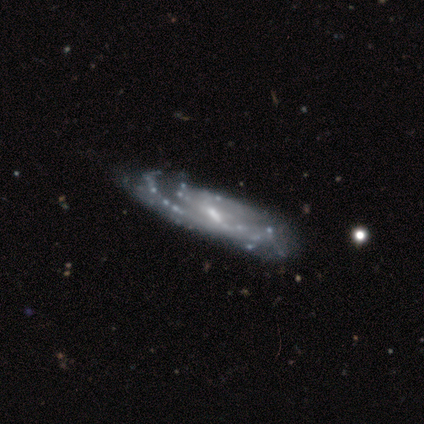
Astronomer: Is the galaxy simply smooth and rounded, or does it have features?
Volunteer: featured or disk — 100%.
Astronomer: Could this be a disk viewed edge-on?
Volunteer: no — 100%.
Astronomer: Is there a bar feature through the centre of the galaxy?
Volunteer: weak — 80%.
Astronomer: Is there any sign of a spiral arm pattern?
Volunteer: yes — 100%.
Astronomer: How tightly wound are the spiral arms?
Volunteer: medium — 80%.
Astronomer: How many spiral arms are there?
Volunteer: can't tell — 40% (runner-up: 2, 20%).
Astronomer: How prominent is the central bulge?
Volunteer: moderate — 60%.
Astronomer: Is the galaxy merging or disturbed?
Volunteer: none — 40%, tied with minor disturbance at 40%.